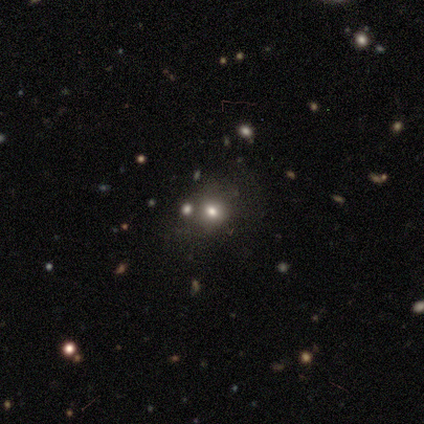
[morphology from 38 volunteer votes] Smooth or featured?
  - smooth: 66% *
  - star or artifact: 29%
  - featured or disk: 5%
How rounded?
  - round: 76% *
  - in between: 24%
  - cigar-shaped: 0%
Merging?
  - none: 70% *
  - merger: 22%
  - minor disturbance: 7%
  - major disturbance: 0%